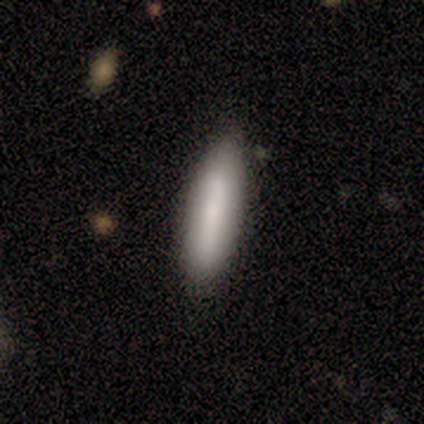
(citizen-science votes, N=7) This is clearly a smooth galaxy (100%). How rounded: likely cigar-shaped (71%). Merging: likely none (71%).